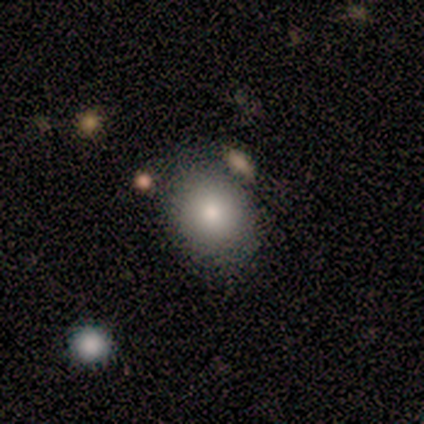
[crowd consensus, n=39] This appears to be a smooth galaxy with no disk features (82%) that is round (59%). Merging: none (56%).